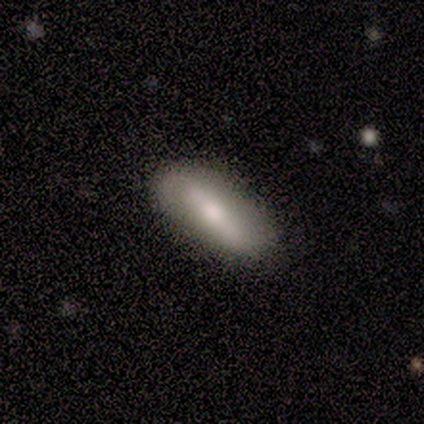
Morphology: type=smooth (60%); roundness=in between (100%); merging=minor disturbance (60%).